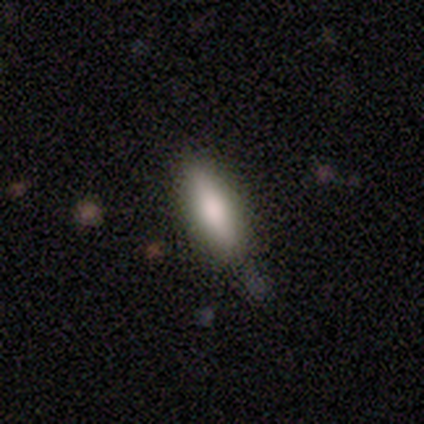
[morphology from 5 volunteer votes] A smooth galaxy with no disk features (80%) that is in between round and cigar-shaped (75%). Merging: none (100%).